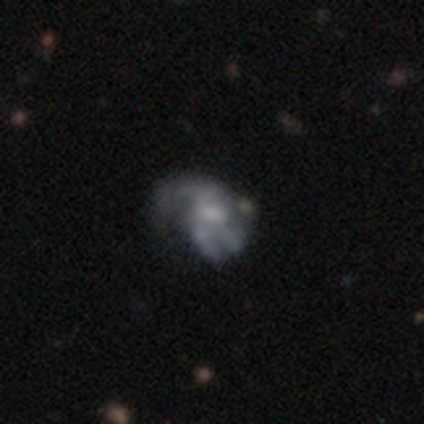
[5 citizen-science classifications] Smooth or featured? featured or disk (60%)
Edge-on disk? no (100%)
Bar? no (100%)
Spiral arms? yes (67%)
Spiral winding? medium (100%)
Spiral arm count? 2 (50%, tied with 3)
Bulge size? none (100%)
Merging? none (40%)